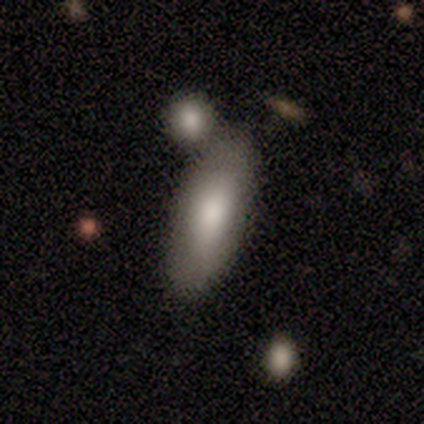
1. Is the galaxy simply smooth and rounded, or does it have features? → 88% smooth, 12% featured or disk, 0% star or artifact.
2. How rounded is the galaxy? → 71% cigar-shaped, 29% in between, 0% round.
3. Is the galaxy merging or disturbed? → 50% merger, 38% none, 12% minor disturbance, 0% major disturbance.